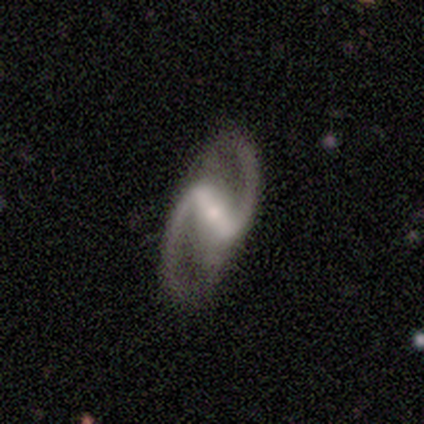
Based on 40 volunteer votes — smooth-or-featured: featured or disk: 92% | star or artifact: 8% | smooth: 0%
  disk-edge-on: no: 95% | yes: 5%
    bar: strong: 69% | weak: 29% | no: 3%
    has-spiral-arms: yes: 100% | no: 0%
      spiral-winding: loose: 60% | medium: 40% | tight: 0%
      spiral-arm-count: 2: 100% | 1: 0% | 3: 0% | 4: 0% | more than 4: 0% | can't tell: 0%
    bulge-size: small: 66% | moderate: 31% | dominant: 3% | large: 0% | none: 0%
  merging: none: 81% | major disturbance: 11% | minor disturbance: 8% | merger: 0%